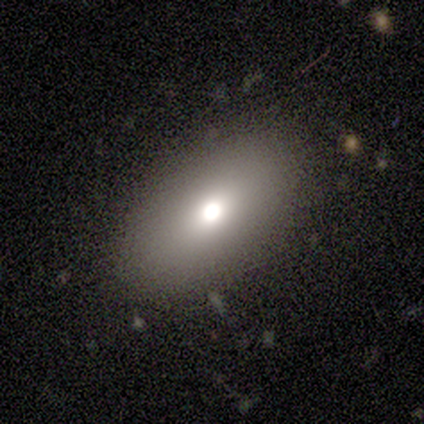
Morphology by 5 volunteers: A smooth galaxy with no disk features (80%) that is in between round and cigar-shaped (75%).

Vote fractions:
- Smooth or featured? smooth: 80% / featured or disk: 20% / star or artifact: 0%
- How rounded? in between: 75% / cigar-shaped: 25% / round: 0%
- Merging? none: 60% / major disturbance: 20% / merger: 20% / minor disturbance: 0%